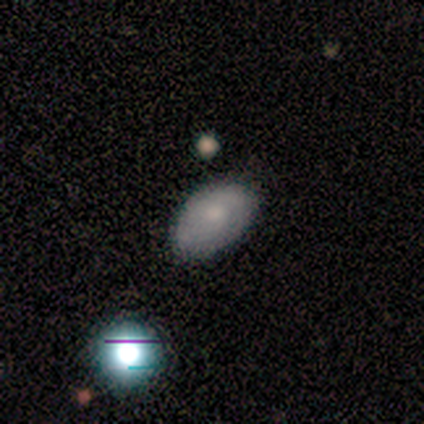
smooth 64%, featured or disk 26%, star or artifact 10%. Down the decision tree: how rounded — in between (80%); merging — none (80%).